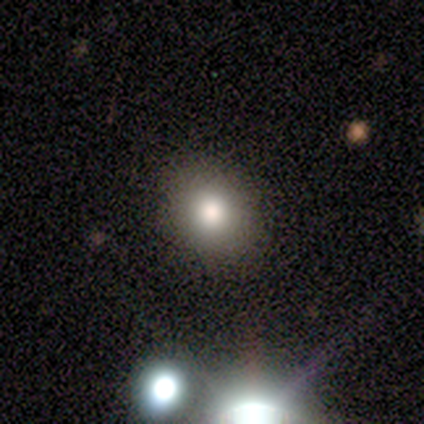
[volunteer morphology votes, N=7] Smooth or featured? 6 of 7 (86%) said smooth. How rounded? 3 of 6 (50%, tied with in between) said round. Merging? 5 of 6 (83%) said none.